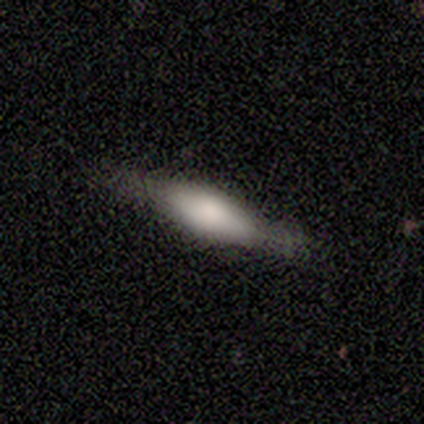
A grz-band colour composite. It shows a featured or disk galaxy (67%) viewed edge-on (88%) with a rounded central bulge (71%). Merging: none (73%).